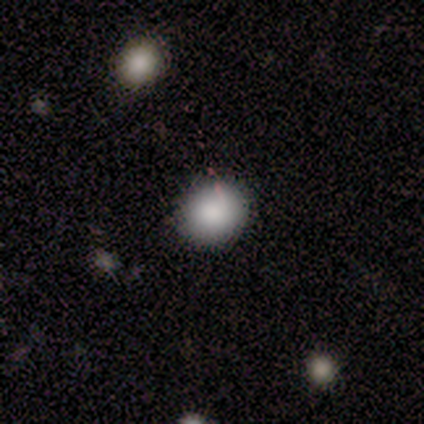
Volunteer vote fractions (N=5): A smooth galaxy with no disk features (60%) that is round (67%). Merging: none (60%).